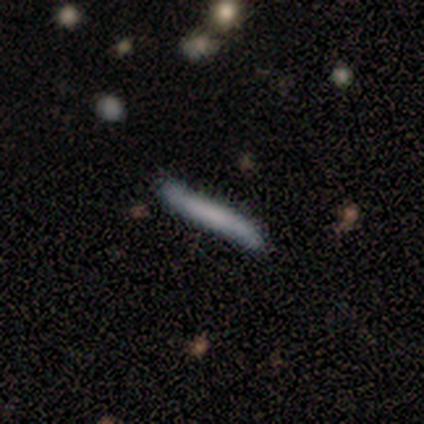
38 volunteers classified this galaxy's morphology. type=smooth (47%, tied with featured or disk); roundness=cigar-shaped (100%); merging=none (75%).